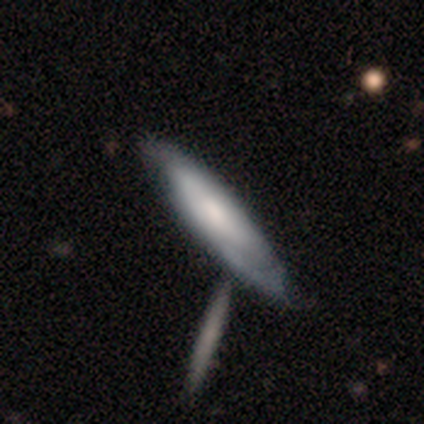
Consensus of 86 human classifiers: Overall: featured or disk (57%; smooth 40%). Edge-on disk: no (53%; yes 47%). Bar: no (77%). Spiral arms: yes (73%). Spiral arm count: can't tell (58%; 2 42%). Spiral winding: tight (74%). Bulge size: moderate (35%; small 27%). Merging: none (55%; minor disturbance 22%).